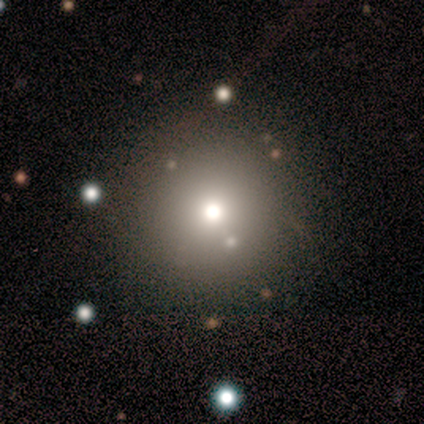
Overall: smooth (62%; star or artifact 27%). How rounded: round (93%). Merging: none (43%; major disturbance 4%).